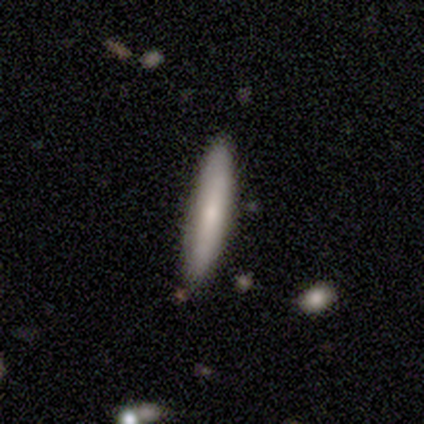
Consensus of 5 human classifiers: This is clearly a smooth galaxy (100%). How rounded: clearly cigar-shaped (100%). Merging: clearly none (100%).